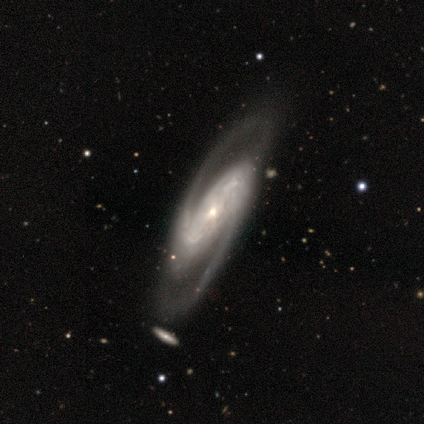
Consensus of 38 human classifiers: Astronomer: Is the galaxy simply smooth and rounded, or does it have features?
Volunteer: featured or disk — 95%.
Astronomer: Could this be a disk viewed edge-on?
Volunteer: no — 97%.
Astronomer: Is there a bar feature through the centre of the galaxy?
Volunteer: strong — 43% (runner-up: weak, 29%).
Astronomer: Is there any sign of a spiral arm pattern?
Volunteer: yes — 100%.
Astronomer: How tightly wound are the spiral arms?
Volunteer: medium — 51%.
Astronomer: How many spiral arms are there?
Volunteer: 2 — 97%.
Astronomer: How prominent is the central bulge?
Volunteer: small — 57%.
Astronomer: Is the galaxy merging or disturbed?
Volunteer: none — 38%.